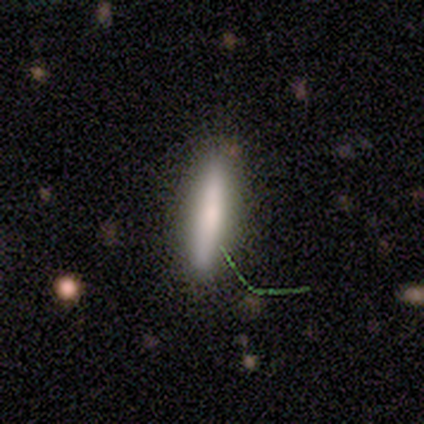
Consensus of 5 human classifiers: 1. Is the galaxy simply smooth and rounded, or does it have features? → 60% smooth, 20% featured or disk, 20% star or artifact.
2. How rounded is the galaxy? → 100% cigar-shaped, 0% round, 0% in between.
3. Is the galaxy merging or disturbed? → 75% none, 25% minor disturbance, 0% major disturbance, 0% merger.